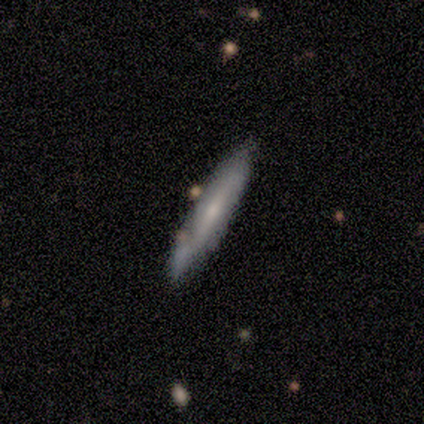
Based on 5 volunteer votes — A smooth galaxy with no disk features (60%) that is cigar-shaped (100%).

Vote fractions:
- Smooth or featured? smooth: 60% / featured or disk: 40% / star or artifact: 0%
- How rounded? cigar-shaped: 100% / round: 0% / in between: 0%
- Merging? none: 60% / minor disturbance: 40% / major disturbance: 0% / merger: 0%